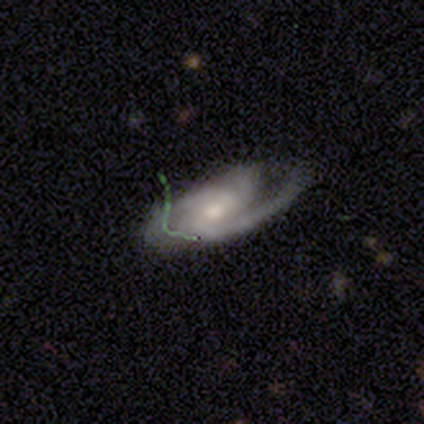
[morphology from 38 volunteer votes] This is clearly a featured or disk galaxy (87%). It is clearly not viewed edge-on (88%). Bar: possibly no (48%). Spiral arm pattern: clearly yes (100%). Spiral arm count: possibly 2 (52%). Spiral winding: possibly medium (59%). Central bulge: possibly moderate (48%). Merging: likely none (69%).